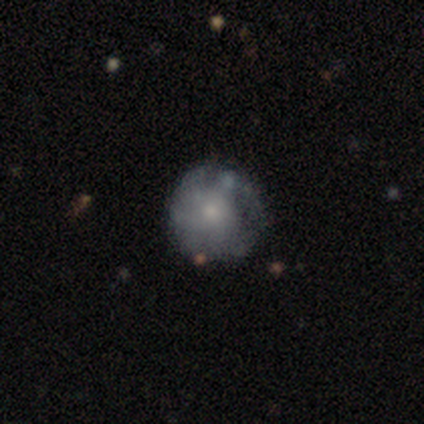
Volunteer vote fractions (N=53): Smooth or featured? 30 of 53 (57%) said featured or disk. Edge-on disk? 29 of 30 (97%) said no. Bar? 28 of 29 (97%) said no. Spiral arms? 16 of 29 (55%) said no. Bulge size? 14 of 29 (48%) said small. Merging? 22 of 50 (44%) said none.